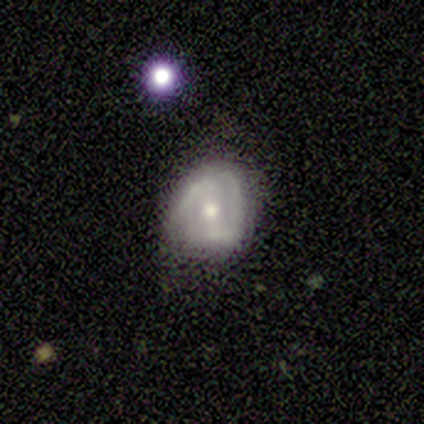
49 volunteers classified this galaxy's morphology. Smooth or featured? featured or disk (71%)
Edge-on disk? no (100%)
Bar? no (49%)
Spiral arms? yes (69%)
Spiral winding? medium (46%)
Spiral arm count? 2 (88%)
Bulge size? moderate (69%)
Merging? none (50%)